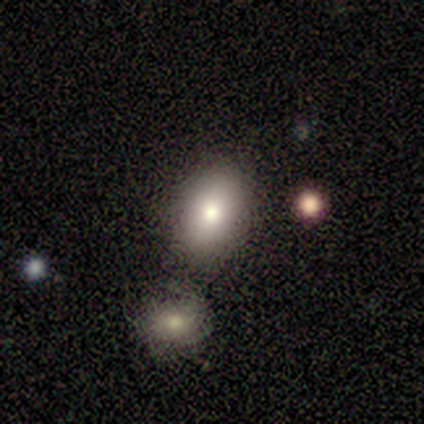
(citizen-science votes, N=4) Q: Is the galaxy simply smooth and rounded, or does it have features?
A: smooth — 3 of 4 (75%).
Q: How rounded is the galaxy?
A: in between — 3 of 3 (100%).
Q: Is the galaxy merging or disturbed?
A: merger — 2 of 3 (67%).